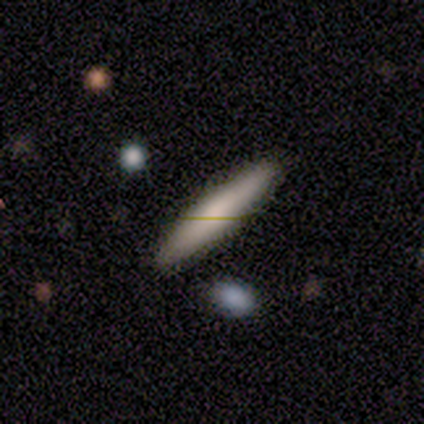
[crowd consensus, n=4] This is likely a smooth galaxy (75%). How rounded: likely cigar-shaped (67%). Merging: possibly none (50%, tied with minor disturbance).